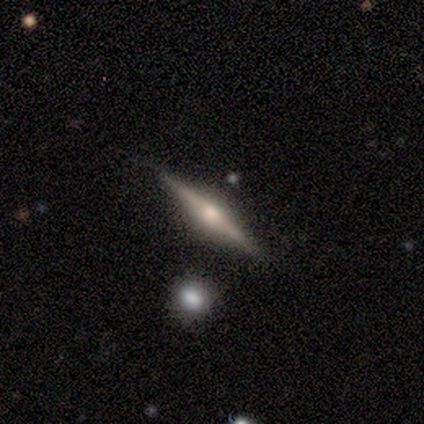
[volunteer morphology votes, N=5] A featured or disk galaxy (60%) viewed edge-on (100%) with a rounded central bulge (100%).

Vote fractions:
- Smooth or featured? featured or disk: 60% / smooth: 40% / star or artifact: 0%
- Edge-on disk? yes: 100% / no: 0%
- Edge-on bulge? rounded: 100% / boxy: 0% / none: 0%
- Merging? none: 80% / merger: 20% / minor disturbance: 0% / major disturbance: 0%